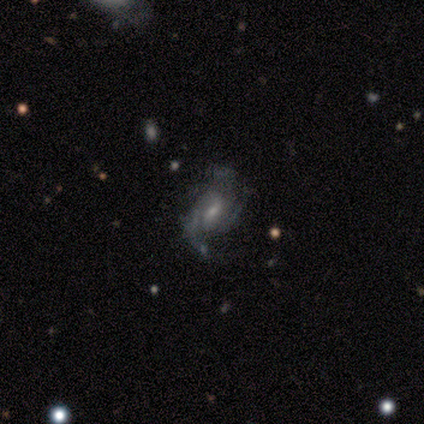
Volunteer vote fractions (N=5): A featured or disk galaxy (80%) with a weak bar (75%), 3 (50%) tight (50%, tied with medium) spiral arms (100%) and a small central bulge (100%).

Vote fractions:
- Smooth or featured? featured or disk: 80% / star or artifact: 20% / smooth: 0%
- Edge-on disk? no: 100% / yes: 0%
- Bar? weak: 75% / no: 25% / strong: 0%
- Spiral arms? yes: 100% / no: 0%
- Spiral winding? tight: 50% (tied) / medium: 50% (tied) / loose: 0%
- Spiral arm count? 3: 50% / 2: 25% / can't tell: 25% / 1: 0% / 4: 0% / more than 4: 0%
- Bulge size? small: 100% / dominant: 0% / large: 0% / moderate: 0% / none: 0%
- Merging? none: 50% / minor disturbance: 25% / major disturbance: 25% / merger: 0%